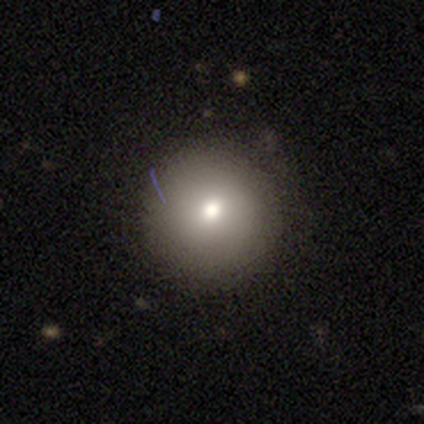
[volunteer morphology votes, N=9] This is clearly a smooth galaxy (100%). How rounded: clearly round (100%). Merging: clearly none (89%).